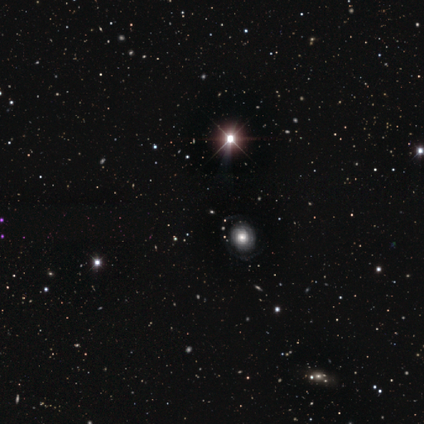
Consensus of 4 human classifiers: star or artifact 100%, smooth 0%, featured or disk 0%.